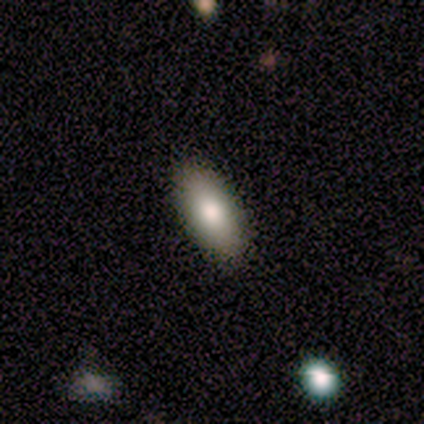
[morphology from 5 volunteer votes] A smooth galaxy with no disk features (60%) that is in between round and cigar-shaped (67%). Merging: none (100%).